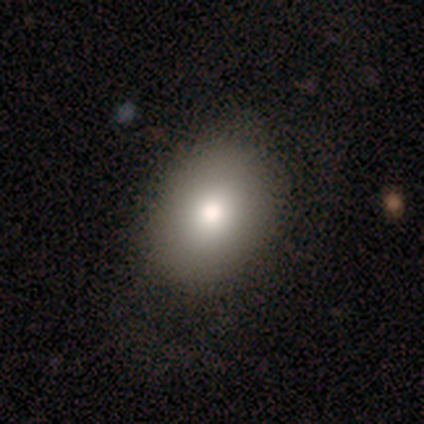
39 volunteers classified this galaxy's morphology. Volunteers were most divided on "merging": none: 70%, minor disturbance: 11%, major disturbance: 0%, merger: 0%. More confident: how rounded — in between (84%); smooth or featured — smooth (79%).